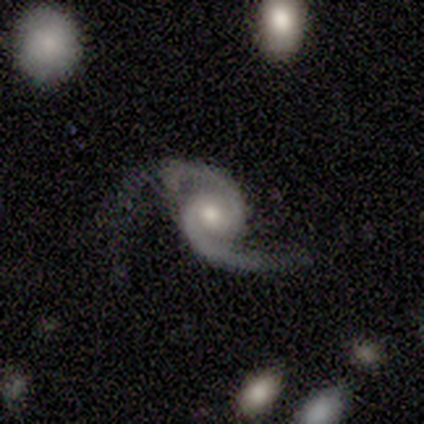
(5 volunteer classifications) Smooth or featured: featured or disk — 100%
Edge-on disk: no — 100%
Bar: no — 60% (weak — 40%)
Spiral arms: yes — 100%
Spiral winding: tight — 40% (tied with loose — 40%)
Spiral arm count: 2 — 100%
Bulge size: large — 40% (tied with moderate — 40%)
Merging: none — 40% (tied with major disturbance — 40%)